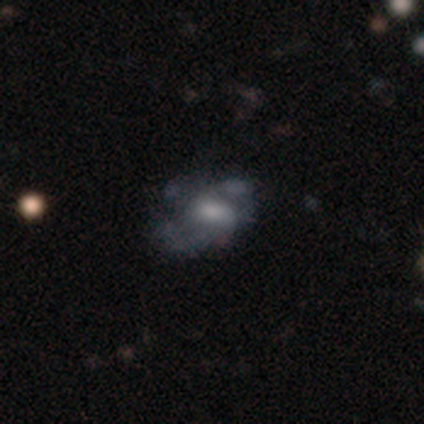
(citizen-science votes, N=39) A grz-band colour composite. It shows a featured or disk galaxy (74%) with no bar (68%), no spiral arms (57%) and a moderate central bulge (46%). Merging: none (47%).